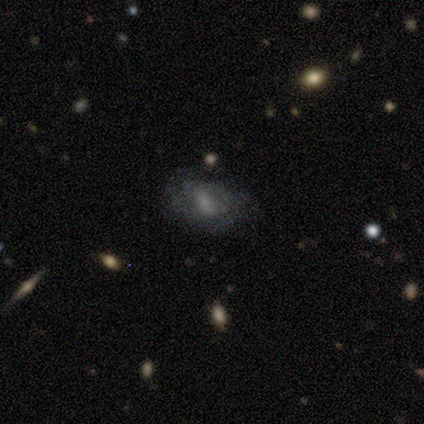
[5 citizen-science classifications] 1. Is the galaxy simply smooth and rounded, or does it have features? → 60% star or artifact, 20% smooth, 20% featured or disk.